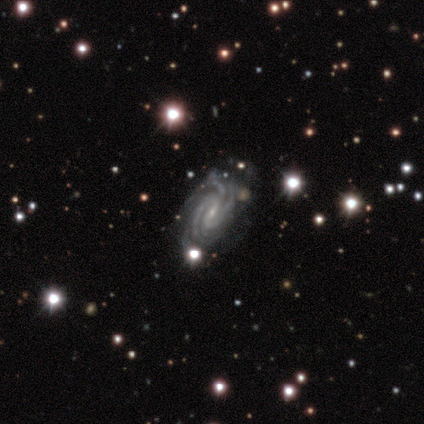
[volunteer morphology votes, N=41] featured or disk 98%, star or artifact 2%, smooth 0%. Down the decision tree: edge-on disk — no (92%); bar — weak (49%); spiral arms — yes (100%); spiral arm count — 3 (35%); spiral winding — tight (68%); bulge size — small (89%); merging — none (80%).